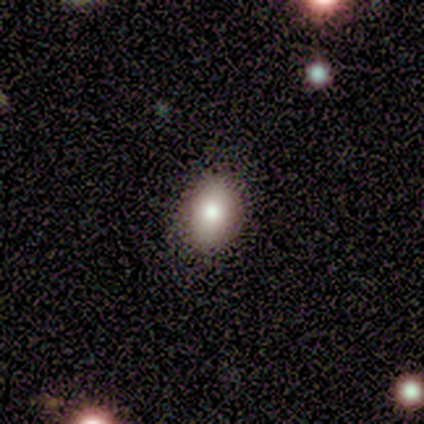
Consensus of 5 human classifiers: Consensus on every question: smooth or featured — smooth (100%); how rounded — in between (100%); merging — none (100%).